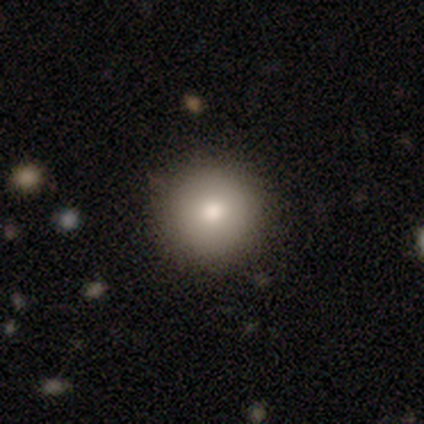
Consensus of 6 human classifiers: A smooth galaxy with no disk features (83%) that is round (80%). Merging: none (80%).